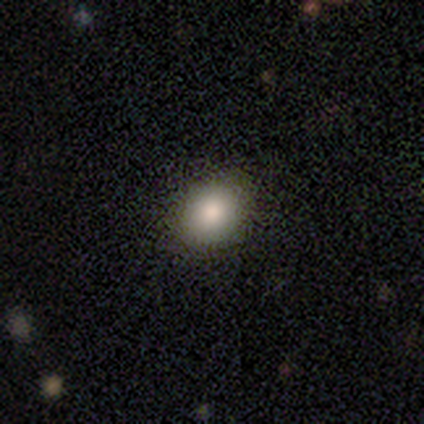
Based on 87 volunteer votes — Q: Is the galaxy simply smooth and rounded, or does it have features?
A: smooth — 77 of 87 (89%).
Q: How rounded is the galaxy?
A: round — 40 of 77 (52%).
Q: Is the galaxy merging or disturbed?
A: none — 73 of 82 (89%).